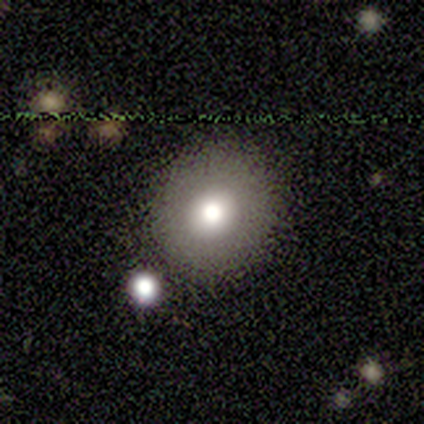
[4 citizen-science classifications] Smooth or featured? 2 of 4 (50%) said smooth. How rounded? 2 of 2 (100%) said round. Merging? 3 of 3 (100%) said none.